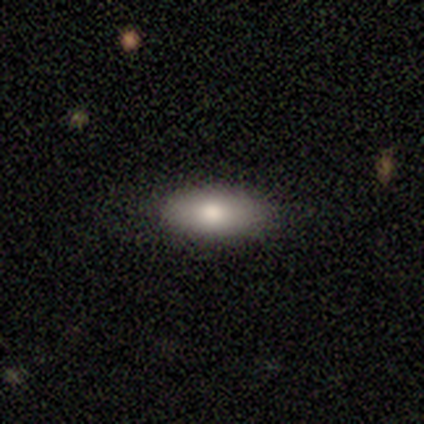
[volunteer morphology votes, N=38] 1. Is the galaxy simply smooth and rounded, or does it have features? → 76% smooth, 13% featured or disk, 11% star or artifact.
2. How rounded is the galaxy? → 83% in between, 17% cigar-shaped, 0% round.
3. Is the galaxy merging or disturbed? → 82% none, 15% minor disturbance, 3% merger, 0% major disturbance.